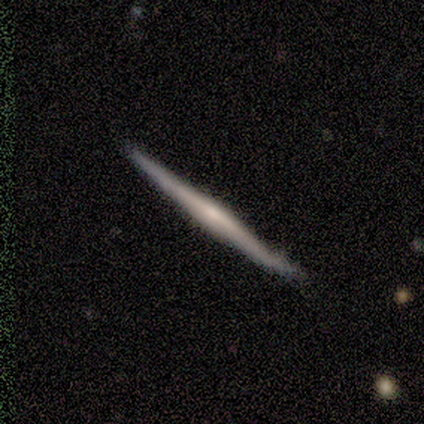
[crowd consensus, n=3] A featured or disk galaxy (100%) viewed edge-on (100%) with a rounded central bulge (67%). Merging: none (67%).